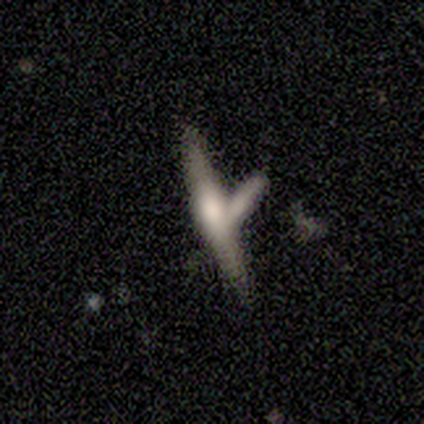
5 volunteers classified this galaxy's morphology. Smooth or featured? 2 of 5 (40%, tied with star or artifact) said smooth. How rounded? 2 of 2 (100%) said cigar-shaped. Merging? 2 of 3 (67%) said merger.